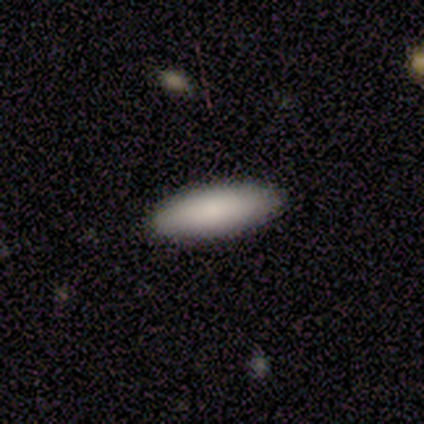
smooth 100%, featured or disk 0%, star or artifact 0%. Down the decision tree: how rounded — in between (100%); merging — none (100%).